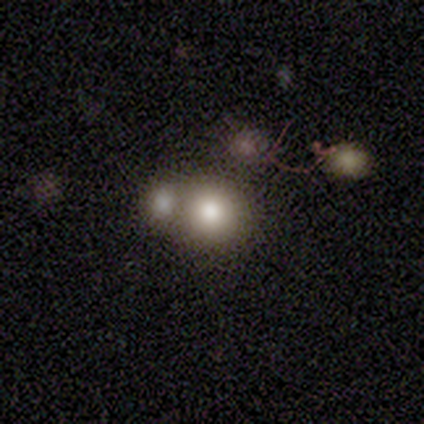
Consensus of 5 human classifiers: Morphology: type=smooth (60%); roundness=round (100%); merging=none (100%).